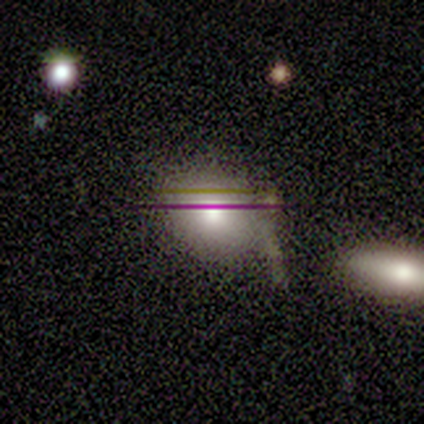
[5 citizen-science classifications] smooth 60%, featured or disk 20%, star or artifact 20%. Down the decision tree: how rounded — in between (100%); merging — none (75%).